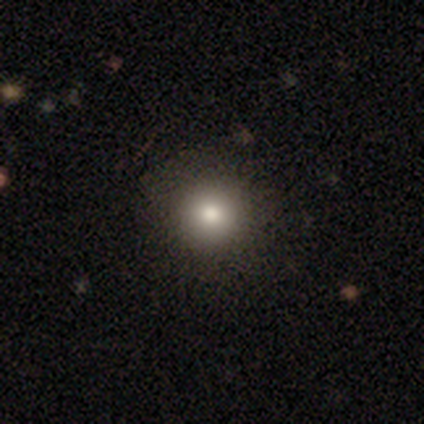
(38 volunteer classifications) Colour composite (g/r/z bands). It shows a smooth galaxy with no disk features (76%) that is round (100%). Merging: none (88%).